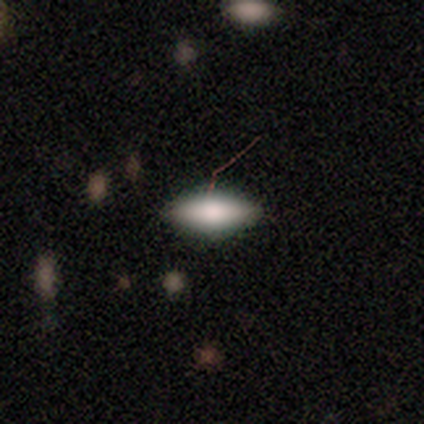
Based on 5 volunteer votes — Overall: smooth (100%). How rounded: in between (80%). Merging: none (60%; major disturbance 40%).